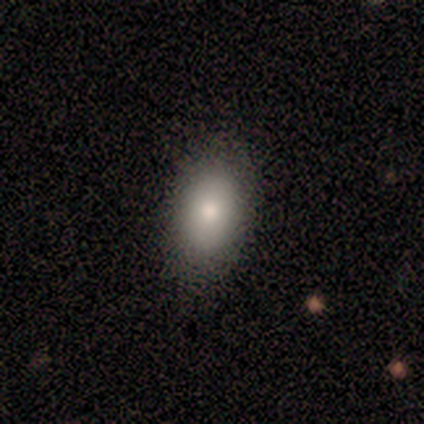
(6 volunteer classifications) A smooth galaxy with no disk features (100%) that is in between round and cigar-shaped (100%). Merging: none (100%).